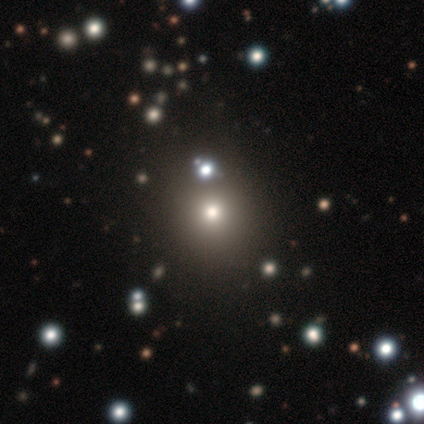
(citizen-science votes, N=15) Smooth or featured: smooth — 67% (star or artifact — 20%)
How rounded: round — 100%
Merging: none — 67% (minor disturbance — 25%)